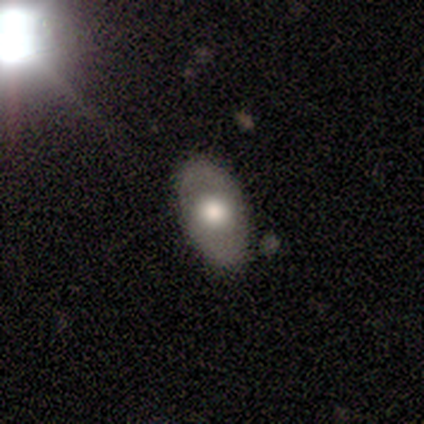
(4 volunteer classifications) A smooth galaxy with no disk features (50%) that is in between round and cigar-shaped (100%). Merging: none (100%).